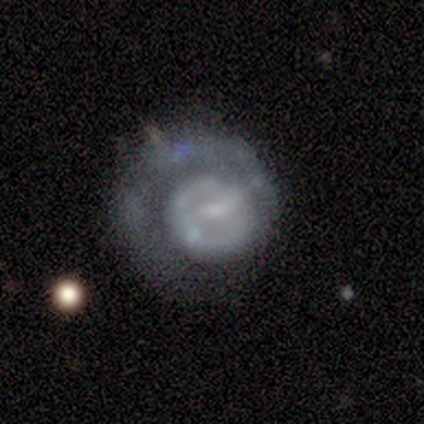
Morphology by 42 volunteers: This is clearly a featured or disk galaxy (86%). It is clearly not viewed edge-on (100%). Bar: possibly weak (56%). Spiral arm pattern: possibly no (56%). Central bulge: marginally small (39%). Merging: marginally none (44%).